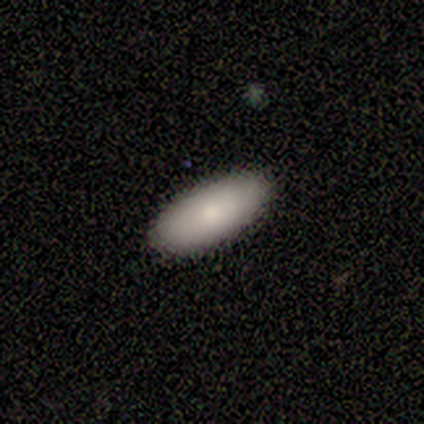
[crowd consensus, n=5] smooth_or_featured: smooth (p=1.00)
how_rounded: in between (p=1.00)
merging: none (p=1.00)